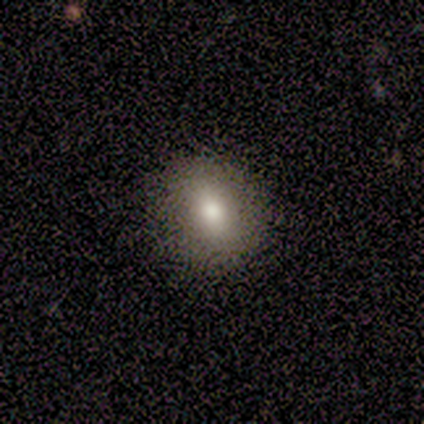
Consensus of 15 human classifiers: Volunteers were most divided on "how rounded": round: 53%, in between: 47%, cigar-shaped: 0%. More confident: smooth or featured — smooth (100%); merging — none (87%).